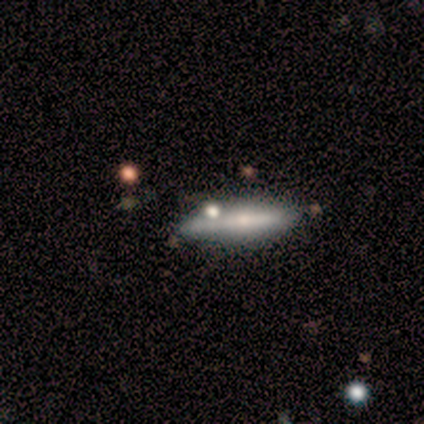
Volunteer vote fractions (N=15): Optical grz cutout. It shows a smooth galaxy with no disk features (53%) that is cigar-shaped (100%). Merging: none (50%).